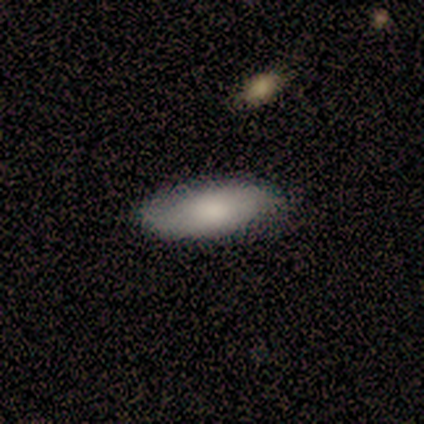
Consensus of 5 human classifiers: This is clearly a smooth galaxy (80%). How rounded: clearly in between (100%). Merging: clearly none (80%).